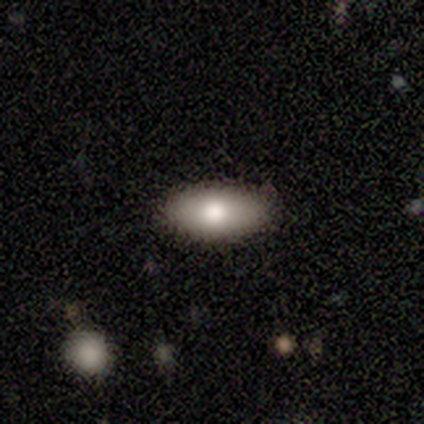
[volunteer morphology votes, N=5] Q: Smooth or featured?
A: smooth (100%)
Q: How rounded?
A: in between (100%)
Q: Merging?
A: none (100%)